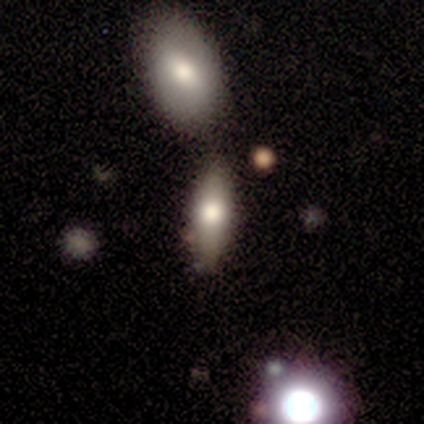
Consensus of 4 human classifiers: smooth_or_featured: smooth (p=0.75) [alt: featured or disk p=0.25]
how_rounded: in between (p=0.67) [alt: cigar-shaped p=0.33]
merging: none (p=0.75) [alt: merger p=0.25]